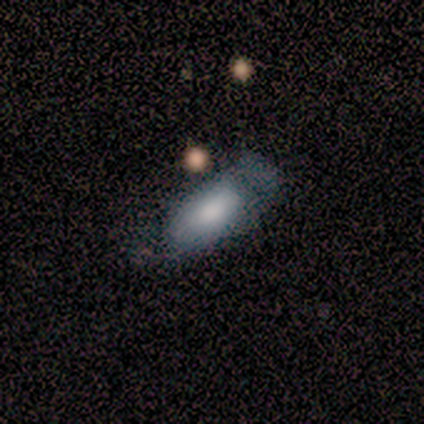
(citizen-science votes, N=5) Smooth or featured? featured or disk (60%)
Edge-on disk? no (67%)
Bar? no (100%)
Spiral arms? no (100%)
Bulge size? large (50%, tied with none)
Merging? minor disturbance (40%, tied with major disturbance)